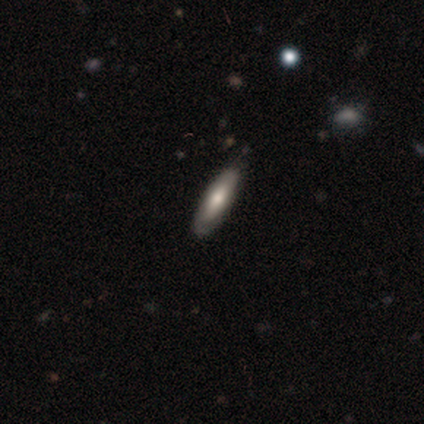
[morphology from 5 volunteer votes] A smooth galaxy with no disk features (60%) that is in between round and cigar-shaped (67%).

Vote fractions:
- Smooth or featured? smooth: 60% / featured or disk: 40% / star or artifact: 0%
- How rounded? in between: 67% / cigar-shaped: 33% / round: 0%
- Merging? none: 100% / minor disturbance: 0% / major disturbance: 0% / merger: 0%